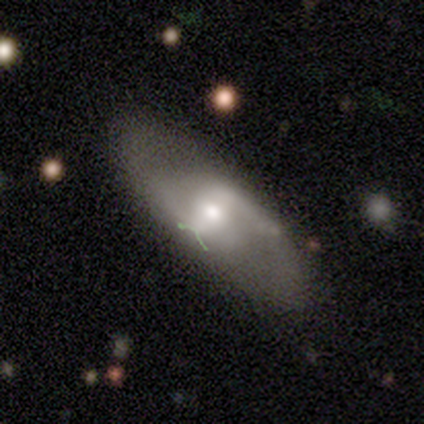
This is likely a featured or disk galaxy (72%). It is clearly not viewed edge-on (93%). Bar: possibly strong (52%). Spiral arm pattern: clearly yes (81%). Spiral arm count: clearly 2 (95%). Spiral winding: possibly medium (45%, tied with loose). Central bulge: possibly moderate (56%). Merging: likely none (61%).